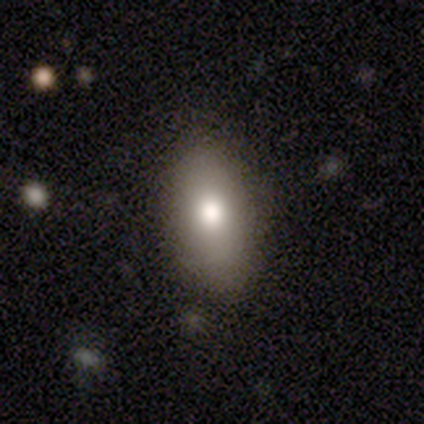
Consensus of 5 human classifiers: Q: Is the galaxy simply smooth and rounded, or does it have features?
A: smooth — 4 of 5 (80%).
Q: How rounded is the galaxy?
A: in between — 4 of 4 (100%).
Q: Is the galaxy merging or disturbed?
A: none — 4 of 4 (100%).